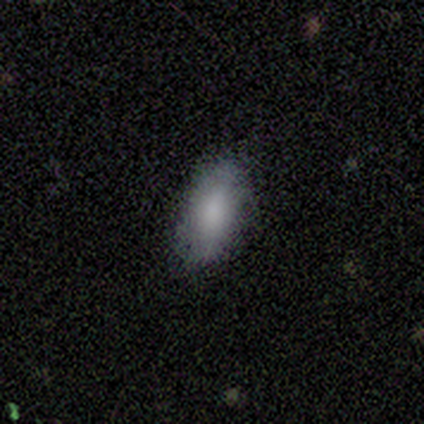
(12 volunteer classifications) Smooth or featured? 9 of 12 (75%) said smooth. How rounded? 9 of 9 (100%) said in between. Merging? 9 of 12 (75%) said none.